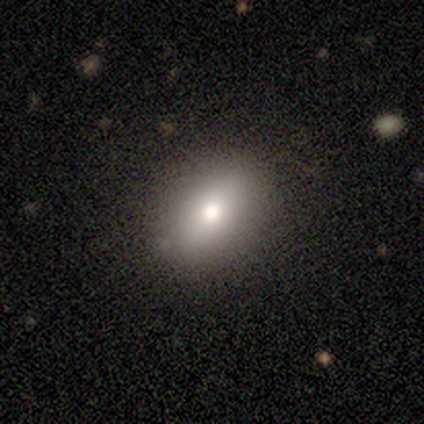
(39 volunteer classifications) Q: Smooth or featured?
A: smooth (67%); runner-up: featured or disk (26%)
Q: How rounded?
A: in between (85%); runner-up: round (12%)
Q: Merging?
A: none (81%); runner-up: minor disturbance (17%)